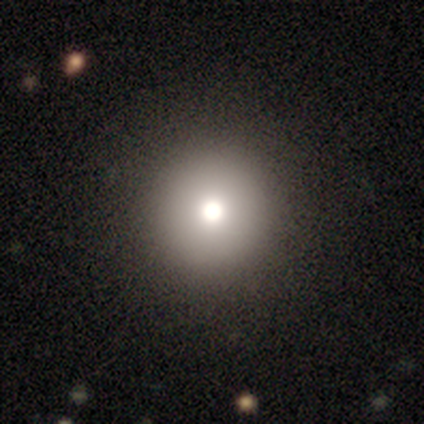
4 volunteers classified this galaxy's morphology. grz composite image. It shows a smooth galaxy with no disk features (50%, tied with star or artifact) that is round (100%). Merging: none (100%).